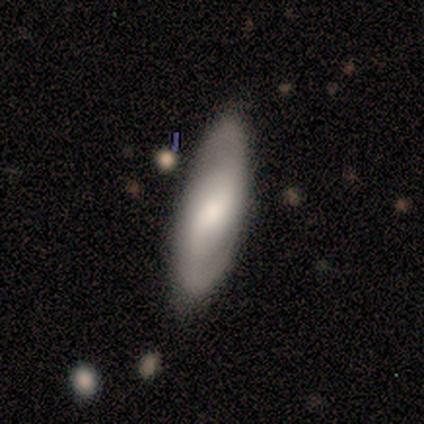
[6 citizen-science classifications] A featured or disk galaxy (83%) with a weak bar (60%), 2 (100%) loose (50%) spiral arms (80%) and a small central bulge (80%). Merging: none (83%).